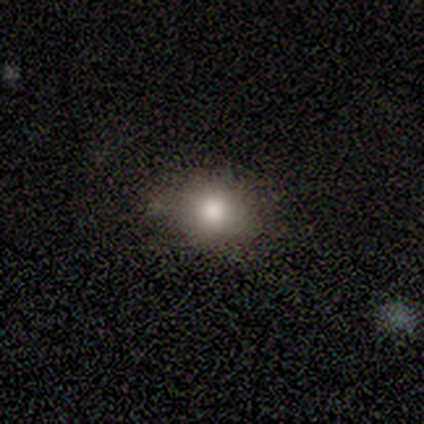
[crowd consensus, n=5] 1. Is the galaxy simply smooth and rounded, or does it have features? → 100% smooth, 0% featured or disk, 0% star or artifact.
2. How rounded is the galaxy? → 60% round, 20% in between, 20% cigar-shaped.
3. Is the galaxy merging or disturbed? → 60% none, 20% minor disturbance, 20% major disturbance, 0% merger.